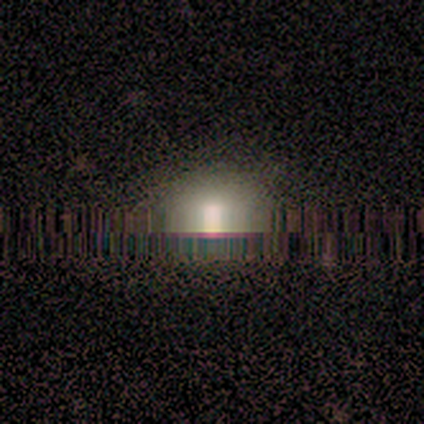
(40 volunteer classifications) Overall: star or artifact (50%; smooth 40%).